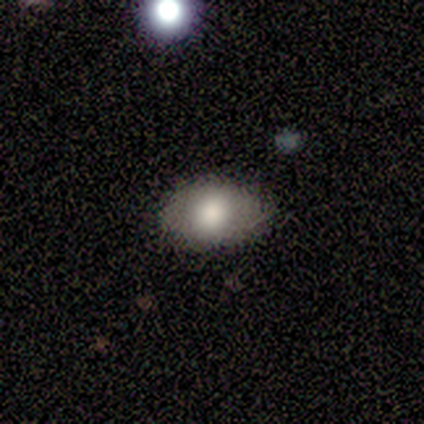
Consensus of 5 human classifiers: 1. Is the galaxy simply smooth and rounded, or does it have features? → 80% smooth, 20% star or artifact, 0% featured or disk.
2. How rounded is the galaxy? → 75% in between, 25% round, 0% cigar-shaped.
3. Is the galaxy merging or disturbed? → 100% none, 0% minor disturbance, 0% major disturbance, 0% merger.